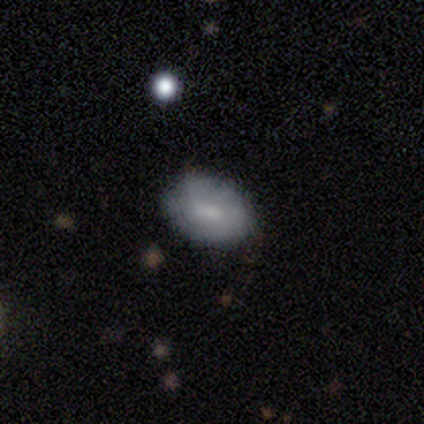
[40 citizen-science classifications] Overall: smooth (68%). How rounded: in between (81%). Merging: none (79%).